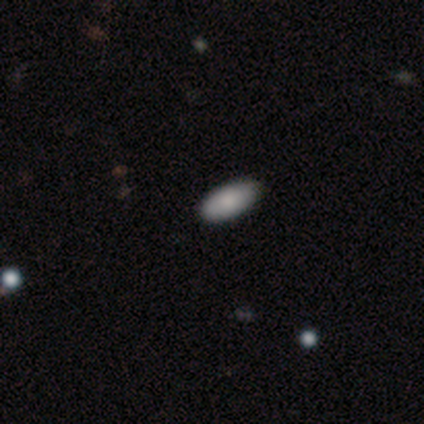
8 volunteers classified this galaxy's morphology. A smooth galaxy with no disk features (88%) that is in between round and cigar-shaped (86%).

Vote fractions:
- Smooth or featured? smooth: 88% / star or artifact: 12% / featured or disk: 0%
- How rounded? in between: 86% / cigar-shaped: 14% / round: 0%
- Merging? none: 100% / minor disturbance: 0% / major disturbance: 0% / merger: 0%